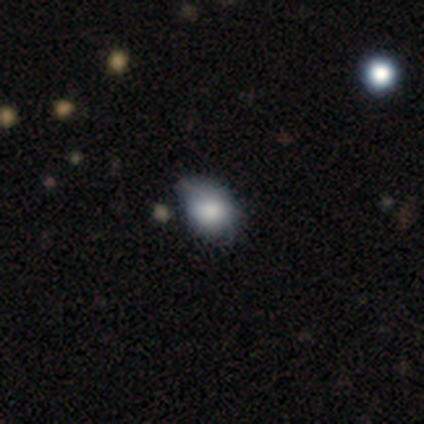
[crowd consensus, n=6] Volunteers were most divided on "merging" (2-way tie): none: 50%, minor disturbance: 50%, major disturbance: 0%, merger: 0%. More confident: how rounded — in between (75%); smooth or featured — smooth (67%).